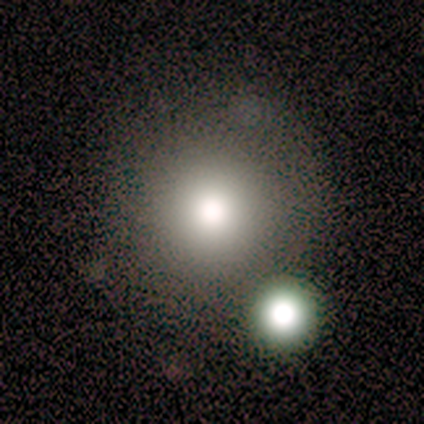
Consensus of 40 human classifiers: Smooth or featured? smooth (72%)
How rounded? round (100%)
Merging? none (83%)